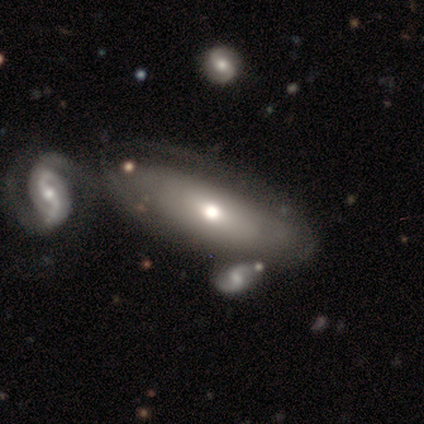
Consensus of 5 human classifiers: Smooth or featured?
  - featured or disk: 60% *
  - smooth: 40%
  - star or artifact: 0%
Edge-on disk?
  - no: 67% *
  - yes: 33%
Bar?
  - no: 100% *
  - strong: 0%
  - weak: 0%
Spiral arms?
  - no: 100% *
  - yes: 0%
Bulge size?
  - small: 100% *
  - dominant: 0%
  - large: 0%
  - moderate: 0%
  - none: 0%
Merging?
  - none: 80% *
  - merger: 20%
  - minor disturbance: 0%
  - major disturbance: 0%